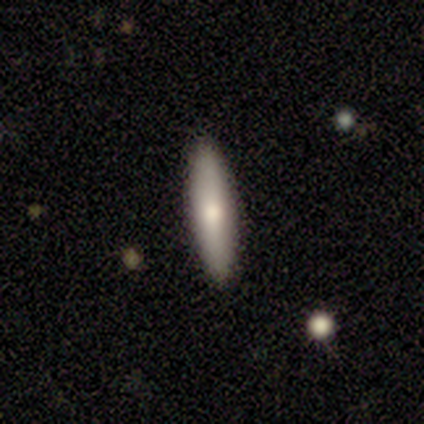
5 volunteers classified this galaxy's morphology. type=smooth (60%); roundness=cigar-shaped (100%); merging=none (100%).